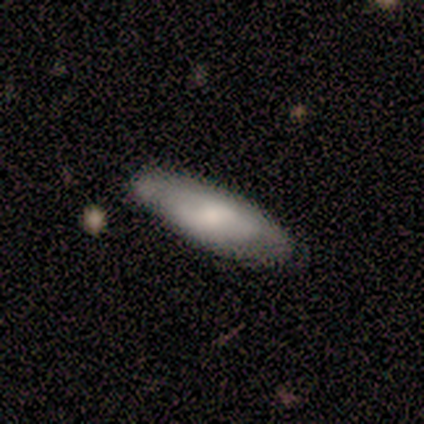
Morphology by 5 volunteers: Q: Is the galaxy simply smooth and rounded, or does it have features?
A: smooth — 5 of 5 (100%).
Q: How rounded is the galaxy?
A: in between — 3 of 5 (60%).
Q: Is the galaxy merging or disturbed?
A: none — 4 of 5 (80%).